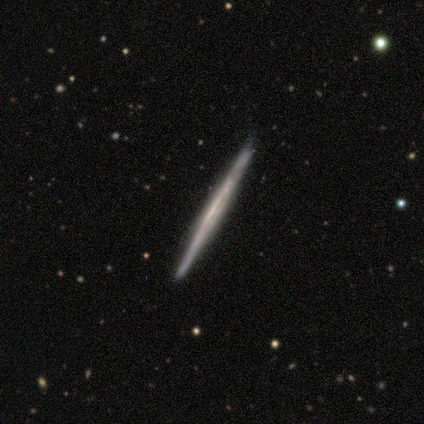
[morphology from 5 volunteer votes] A featured or disk galaxy (60%) viewed edge-on (100%) with no central bulge (100%). Merging: none (100%).